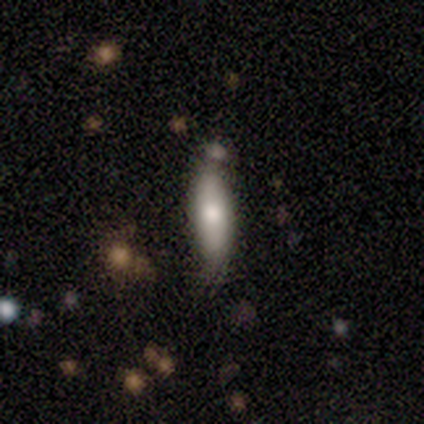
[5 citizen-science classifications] Volunteers were most divided on "how rounded" (2-way tie): in between: 50%, cigar-shaped: 50%, round: 0%. More confident: smooth or featured — smooth (80%); merging — none (50%).